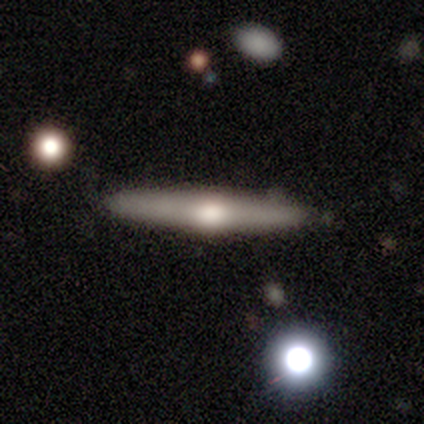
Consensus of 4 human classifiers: featured or disk 75%, smooth 25%, star or artifact 0%. Down the decision tree: edge-on disk — yes (100%); edge-on bulge — rounded (100%); merging — none (100%).